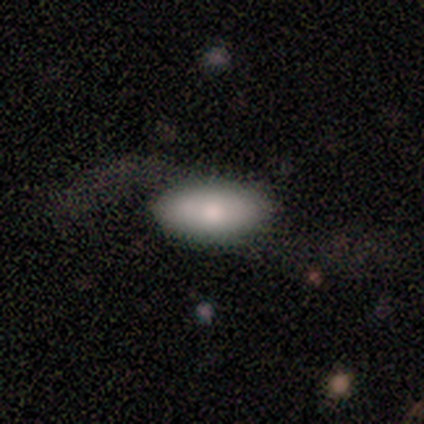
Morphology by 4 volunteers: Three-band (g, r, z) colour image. It shows a smooth galaxy with no disk features (75%) that is in between round and cigar-shaped (67%). Merging: none (75%).